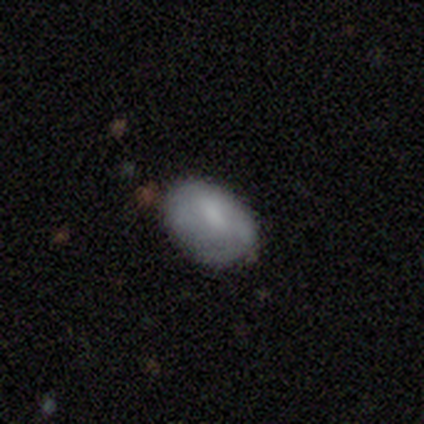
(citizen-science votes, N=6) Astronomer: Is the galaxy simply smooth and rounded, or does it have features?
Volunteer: smooth — 83%.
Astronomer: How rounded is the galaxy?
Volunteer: in between — 80%.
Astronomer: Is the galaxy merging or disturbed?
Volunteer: none — 50% (runner-up: minor disturbance, 33%).